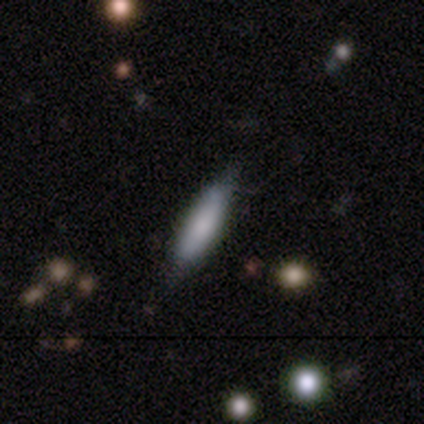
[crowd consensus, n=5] Smooth or featured: smooth — 80% (featured or disk — 20%)
How rounded: cigar-shaped — 75% (in between — 25%)
Merging: none — 80% (minor disturbance — 20%)